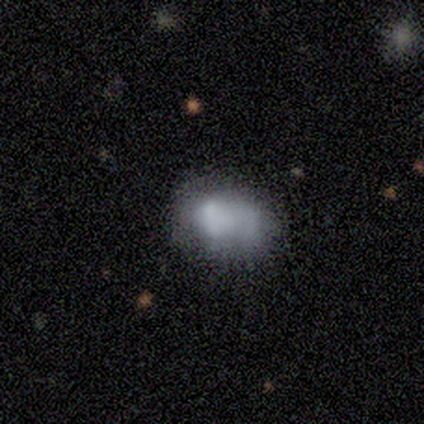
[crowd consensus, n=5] A smooth galaxy with no disk features (60%) that is in between round and cigar-shaped (100%).

Vote fractions:
- Smooth or featured? smooth: 60% / featured or disk: 20% / star or artifact: 20%
- How rounded? in between: 100% / round: 0% / cigar-shaped: 0%
- Merging? none: 75% / minor disturbance: 25% / major disturbance: 0% / merger: 0%